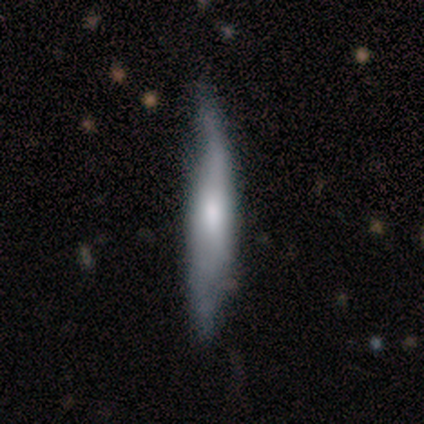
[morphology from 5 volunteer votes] smooth-or-featured: smooth: 60% | featured or disk: 40% | star or artifact: 0%
  how-rounded: cigar-shaped: 100% | round: 0% | in between: 0%
  merging: minor disturbance: 80% | none: 20% | major disturbance: 0% | merger: 0%